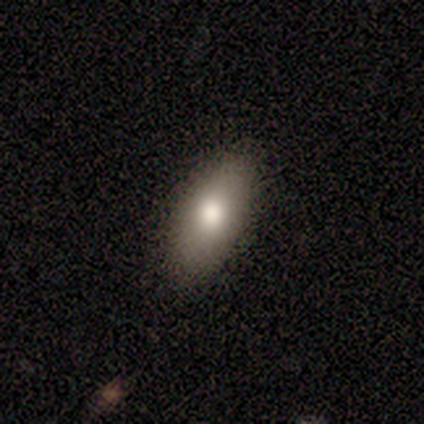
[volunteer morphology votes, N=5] Smooth or featured? smooth (40%, tied with featured or disk)
How rounded? in between (50%, tied with cigar-shaped)
Merging? none (100%)